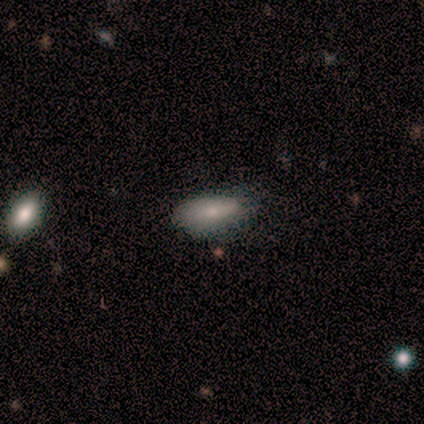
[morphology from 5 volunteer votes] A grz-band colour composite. It shows a smooth galaxy with no disk features (100%) that is in between round and cigar-shaped (80%). Merging: none (80%).